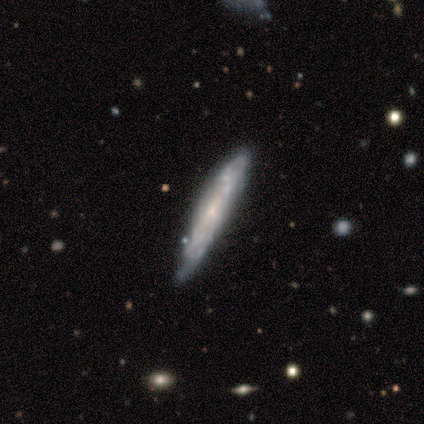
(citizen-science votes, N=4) Smooth or featured?
  - featured or disk: 75% *
  - smooth: 25%
  - star or artifact: 0%
Edge-on disk?
  - yes: 100% *
  - no: 0%
Edge-on bulge?
  - none: 67% *
  - rounded: 33%
  - boxy: 0%
Merging?
  - none: 50% * (tied)
  - minor disturbance: 50% * (tied)
  - major disturbance: 0%
  - merger: 0%